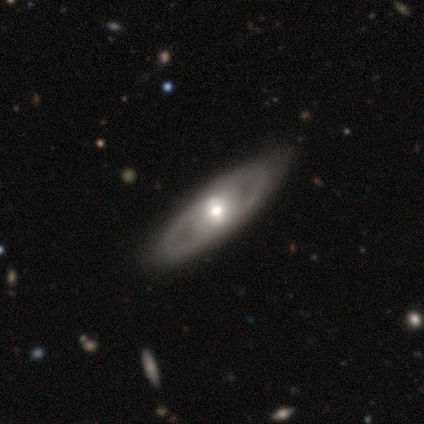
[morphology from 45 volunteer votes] A featured or disk galaxy (84%) with no bar (43%), 2 (76%) tight (59%) spiral arms (57%) and a moderate central bulge (60%).

Vote fractions:
- Smooth or featured? featured or disk: 84% / smooth: 9% / star or artifact: 7%
- Edge-on disk? no: 79% / yes: 21%
- Bar? no: 43% / weak: 33% / strong: 23%
- Spiral arms? yes: 57% / no: 43%
- Spiral winding? tight: 59% / medium: 41% / loose: 0%
- Spiral arm count? 2: 76% / can't tell: 24% / 1: 0% / 3: 0% / 4: 0% / more than 4: 0%
- Bulge size? moderate: 60% / small: 30% / large: 10% / dominant: 0% / none: 0%
- Merging? none: 88% / minor disturbance: 10% / major disturbance: 2% / merger: 0%